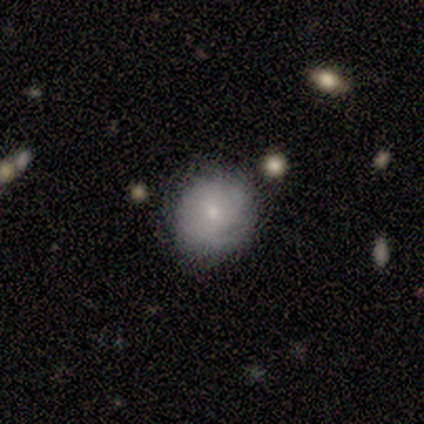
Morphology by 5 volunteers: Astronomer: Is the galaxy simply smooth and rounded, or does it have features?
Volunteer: smooth — 80%.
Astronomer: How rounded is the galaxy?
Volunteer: round — 75%.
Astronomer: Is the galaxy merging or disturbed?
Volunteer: none — 100%.